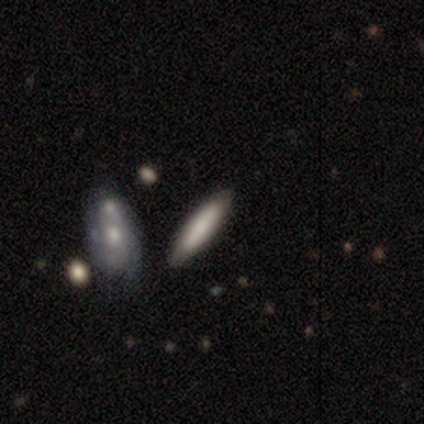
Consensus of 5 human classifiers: Volunteers were most divided on "smooth or featured" (2-way tie): smooth: 40%, star or artifact: 40%, featured or disk: 20%; "how rounded" (2-way tie): in between: 50%, cigar-shaped: 50%, round: 0%. More confident: merging — none (100%).